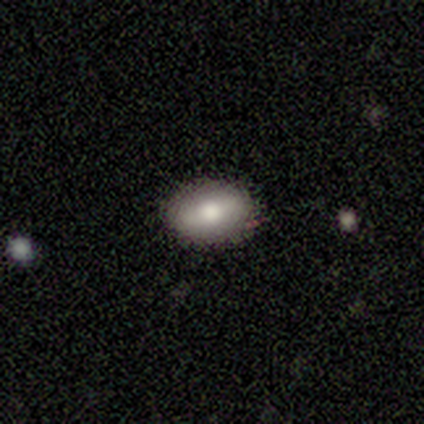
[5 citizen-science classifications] Volunteers were most divided on "smooth or featured": smooth: 60%, featured or disk: 40%, star or artifact: 0%. More confident: how rounded — in between (100%); merging — none (100%).